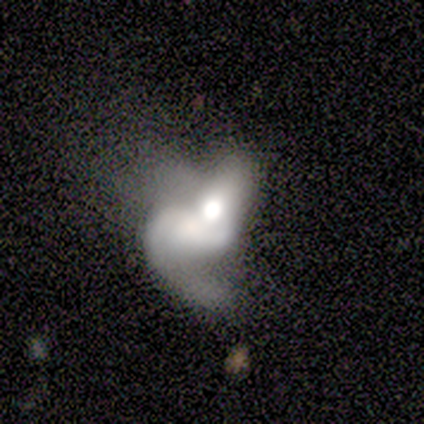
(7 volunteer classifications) featured or disk 71%, smooth 29%, star or artifact 0%. Down the decision tree: edge-on disk — no (100%); bar — no (80%); spiral arms — no (60%); bulge size — moderate (40%); merging — major disturbance (57%).